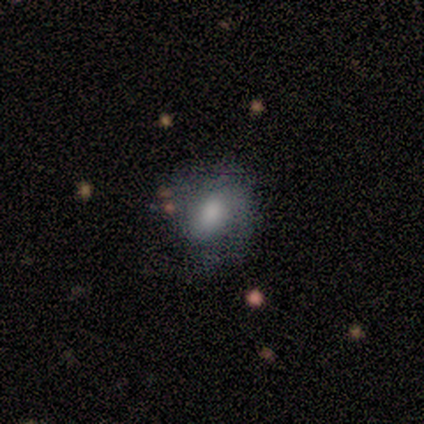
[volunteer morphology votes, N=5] Volunteers were most divided on "smooth or featured" (2-way tie): smooth: 40%, featured or disk: 40%, star or artifact: 20%. More confident: how rounded — round (100%); merging — none (75%).